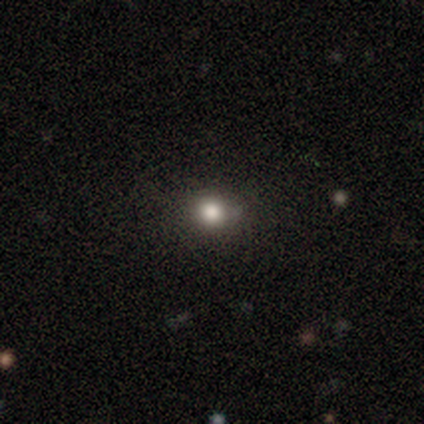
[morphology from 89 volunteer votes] Smooth or featured? 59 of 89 (66%) said smooth. How rounded? 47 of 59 (80%) said round. Merging? 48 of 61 (79%) said none.